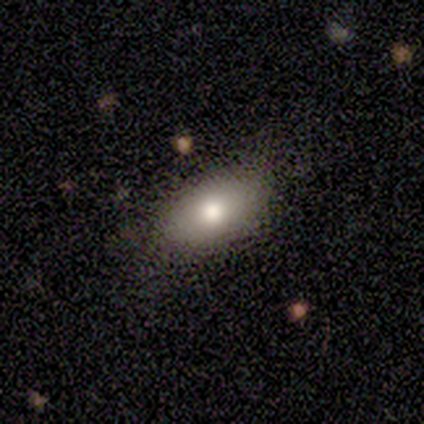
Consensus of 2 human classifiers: smooth_or_featured: smooth (p=1.00)
how_rounded: in between (p=1.00)
merging: none (p=1.00)